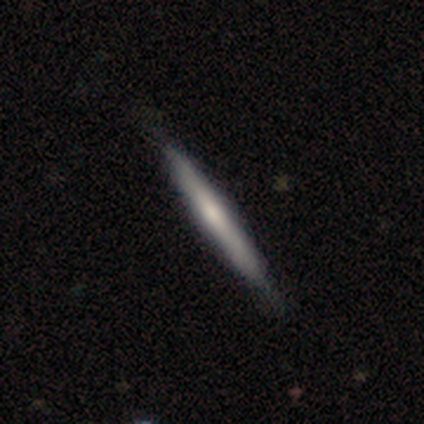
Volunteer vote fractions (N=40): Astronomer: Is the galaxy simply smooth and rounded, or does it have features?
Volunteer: smooth — 52% (runner-up: featured or disk, 45%).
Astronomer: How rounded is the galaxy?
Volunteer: cigar-shaped — 95%.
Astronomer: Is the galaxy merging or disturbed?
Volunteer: none — 62%.